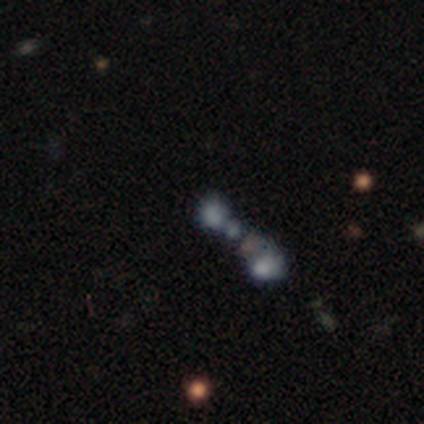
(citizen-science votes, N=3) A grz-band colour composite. It shows a smooth galaxy with no disk features (67%) that is round (100%). Merging: merger (100%).